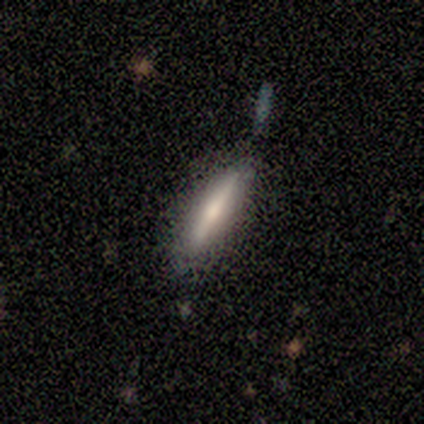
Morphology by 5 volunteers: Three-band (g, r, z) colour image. It shows a featured or disk galaxy (60%) viewed edge-on (100%) with no central bulge (67%). Merging: none (80%).